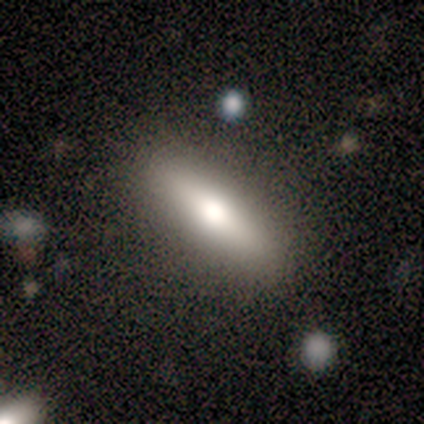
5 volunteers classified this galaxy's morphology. This is likely a featured or disk galaxy (60%). It is clearly viewed edge-on (100%). Edge-on bulge: clearly rounded (100%). Merging: clearly none (100%).